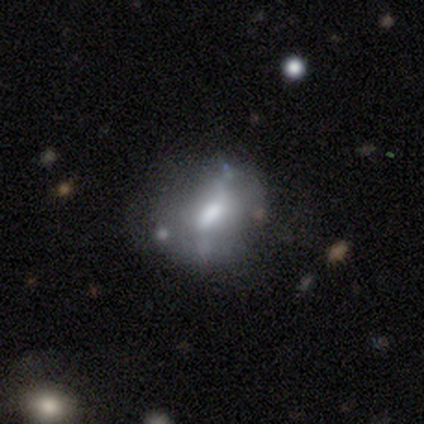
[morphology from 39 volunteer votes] This is possibly a featured or disk galaxy (54%). It is clearly not viewed edge-on (90%). Bar: marginally weak (42%, tied with no). Spiral arm pattern: clearly no (84%). Central bulge: likely moderate (63%). Merging: possibly none (56%).